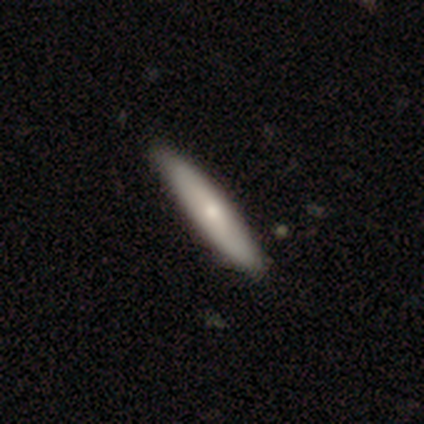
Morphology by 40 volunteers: smooth_or_featured: smooth (p=0.68) [alt: featured or disk p=0.30]
how_rounded: cigar-shaped (p=0.89) [alt: in between p=0.11]
merging: none (p=0.64) [alt: minor disturbance p=0.03]